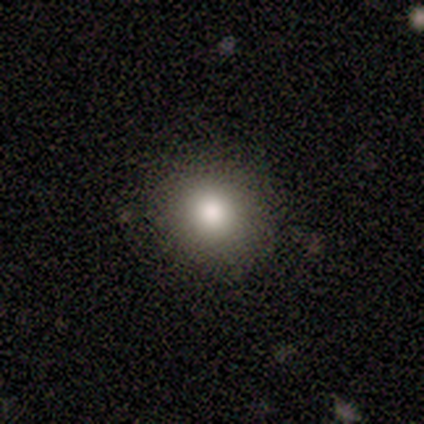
This appears to be a smooth galaxy with no disk features (100%) that is round (50%, tied with in between). Merging: none (100%).